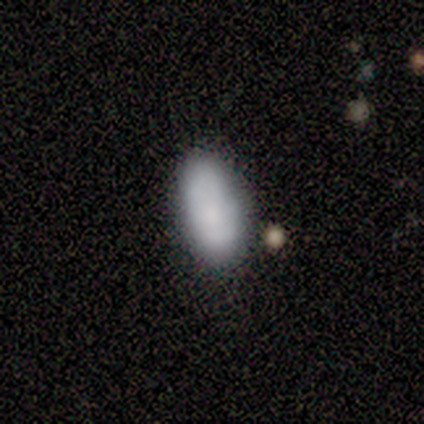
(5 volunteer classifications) Morphology: type=smooth (60%); roundness=in between (100%); merging=none (50%, tied with minor disturbance).